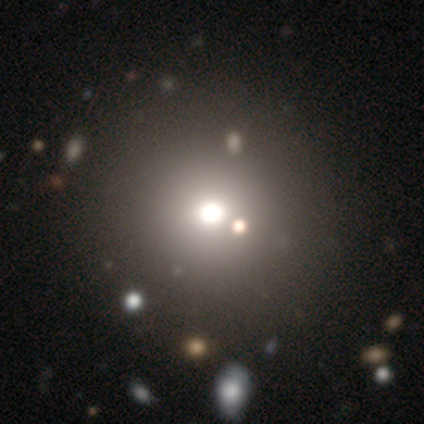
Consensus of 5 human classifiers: Q: Smooth or featured?
A: smooth (60%); runner-up: star or artifact (40%)
Q: How rounded?
A: round (100%)
Q: Merging?
A: none (67%); runner-up: merger (33%)